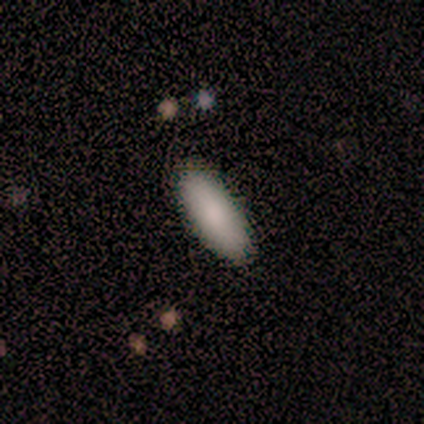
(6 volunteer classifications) This is clearly a smooth galaxy (100%). How rounded: clearly in between (83%). Merging: clearly none (100%).